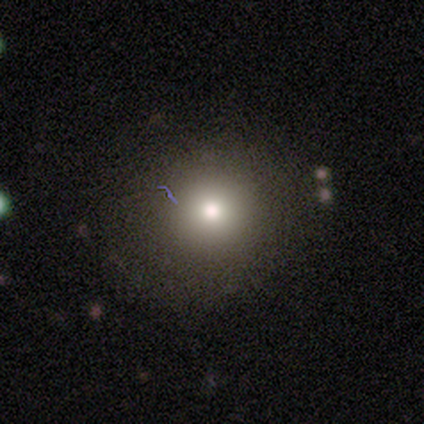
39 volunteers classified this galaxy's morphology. A smooth galaxy with no disk features (79%) that is round (90%).

Vote fractions:
- Smooth or featured? smooth: 79% / featured or disk: 15% / star or artifact: 5%
- How rounded? round: 90% / in between: 10% / cigar-shaped: 0%
- Merging? none: 78% / minor disturbance: 16% / major disturbance: 5% / merger: 0%